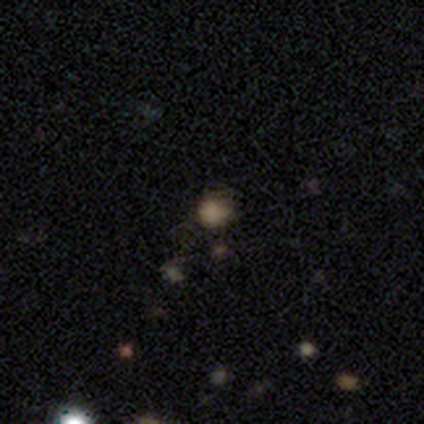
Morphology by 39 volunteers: This appears to be a smooth galaxy with no disk features (67%) that is round (81%). Merging: none (75%).